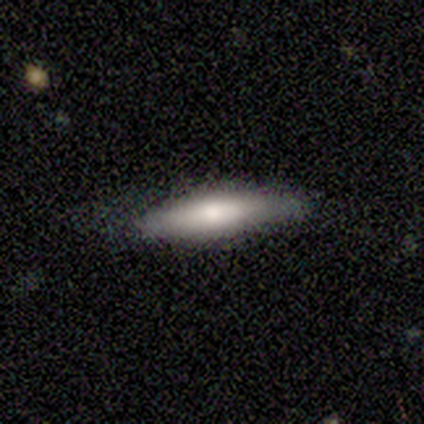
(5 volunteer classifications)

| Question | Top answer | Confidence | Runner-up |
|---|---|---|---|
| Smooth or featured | smooth | 100% | — |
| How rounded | cigar-shaped | 60% | in between (40%) |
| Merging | none | 80% | minor disturbance (20%) |